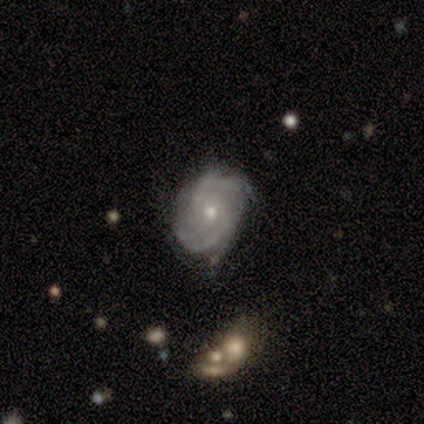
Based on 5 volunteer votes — featured or disk 80%, star or artifact 20%, smooth 0%. Down the decision tree: edge-on disk — no (100%); bar — no (50%); spiral arms — yes (100%); spiral arm count — 2 (100%); spiral winding — medium (75%); bulge size — small (75%); merging — none (75%).